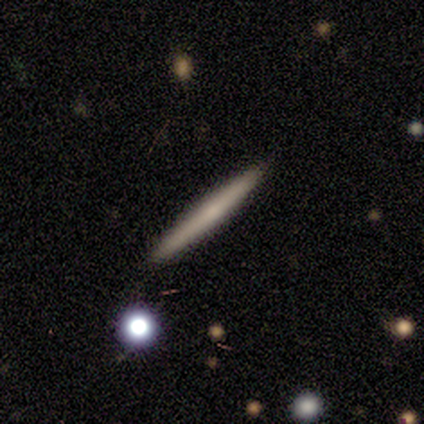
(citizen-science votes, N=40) Overall: smooth (52%; featured or disk 40%). How rounded: cigar-shaped (95%). Merging: none (65%).